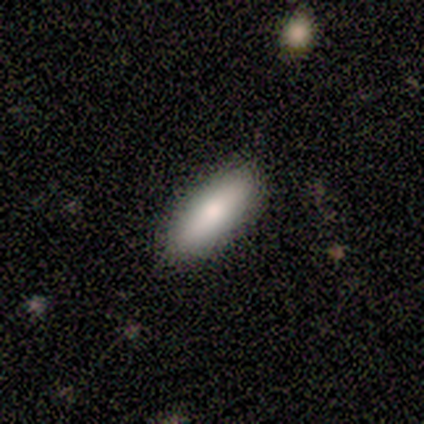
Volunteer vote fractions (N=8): Smooth or featured? smooth (88%)
How rounded? cigar-shaped (57%)
Merging? none (100%)